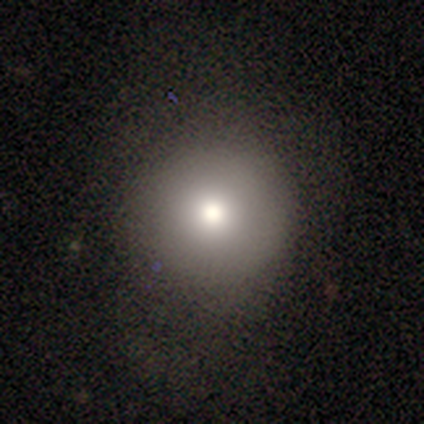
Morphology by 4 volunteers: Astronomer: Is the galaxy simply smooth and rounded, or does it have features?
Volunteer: smooth — 100%.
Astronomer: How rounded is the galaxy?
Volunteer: round — 100%.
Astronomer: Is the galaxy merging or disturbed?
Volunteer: none — 100%.